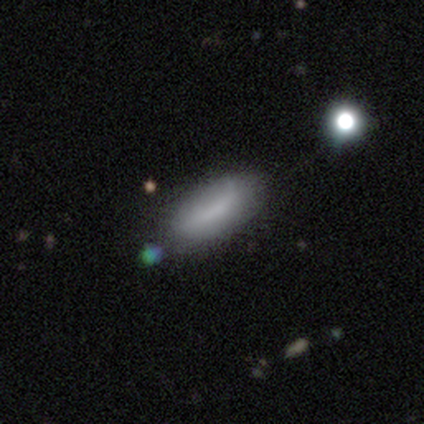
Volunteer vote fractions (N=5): smooth_or_featured: smooth (p=0.80) [alt: featured or disk p=0.20]
how_rounded: in between (p=0.75) [alt: cigar-shaped p=0.25]
merging: none (p=0.80) [alt: minor disturbance p=0.20]